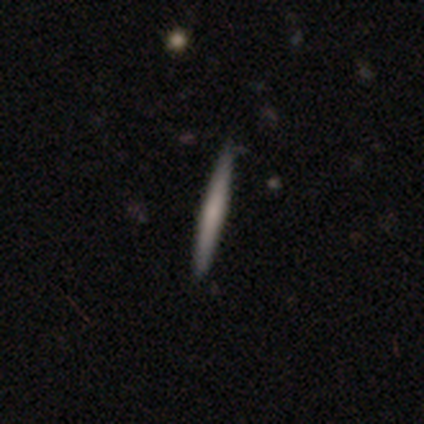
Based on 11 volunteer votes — A featured or disk galaxy (55%) viewed edge-on (100%) with no central bulge (83%).

Vote fractions:
- Smooth or featured? featured or disk: 55% / smooth: 36% / star or artifact: 9%
- Edge-on disk? yes: 100% / no: 0%
- Edge-on bulge? none: 83% / rounded: 17% / boxy: 0%
- Merging? none: 80% / minor disturbance: 10% / merger: 10% / major disturbance: 0%